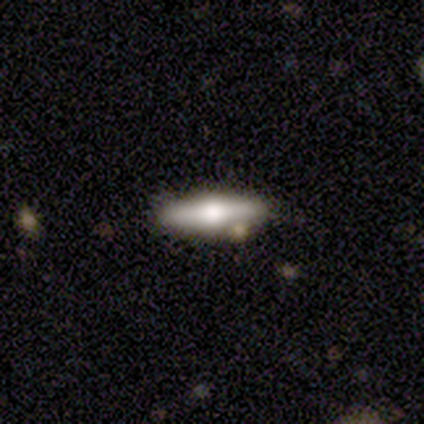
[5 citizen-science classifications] Morphology: type=featured or disk (60%); edge-on=yes (67%); edge-on bulge=rounded (100%); merging=none (100%).